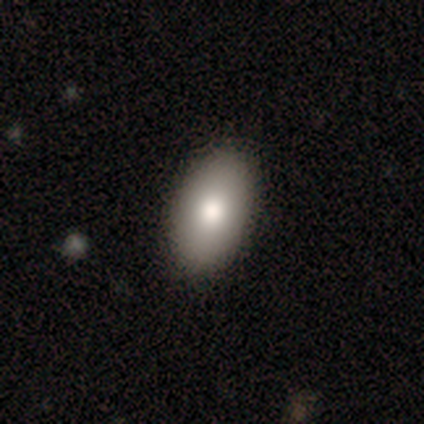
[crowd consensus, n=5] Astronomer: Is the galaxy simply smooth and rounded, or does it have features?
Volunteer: smooth — 60% (runner-up: star or artifact, 40%).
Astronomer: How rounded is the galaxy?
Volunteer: in between — 100%.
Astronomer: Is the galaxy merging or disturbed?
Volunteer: none — 100%.